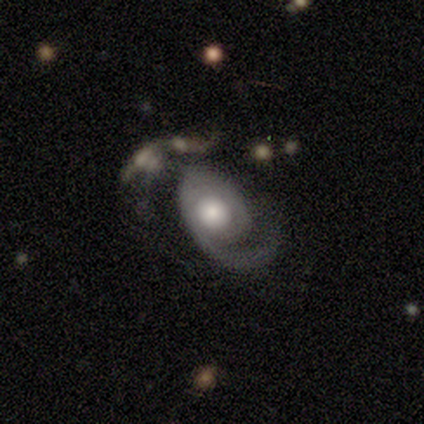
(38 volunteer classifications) smooth-or-featured: featured or disk: 79% | smooth: 18% | star or artifact: 3%
  disk-edge-on: no: 97% | yes: 3%
    bar: no: 72% | weak: 21% | strong: 7%
    has-spiral-arms: yes: 97% | no: 3%
      spiral-winding: medium: 39% | loose: 32% | tight: 29%
      spiral-arm-count: 1: 79% | can't tell: 14% | 2: 4% | more than 4: 4% | 3: 0% | 4: 0%
    bulge-size: moderate: 45% | large: 38% | small: 10% | dominant: 7% | none: 0%
  merging: major disturbance: 49% | minor disturbance: 22% | none: 16% | merger: 14%